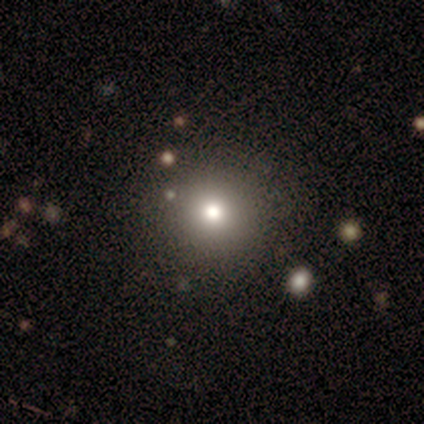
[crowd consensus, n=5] A smooth galaxy with no disk features (60%) that is round (100%). Merging: none (100%).